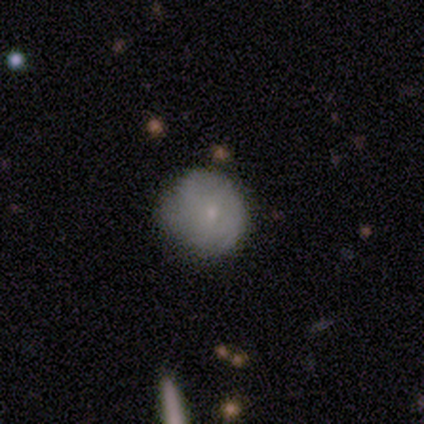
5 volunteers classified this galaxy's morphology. Overall: smooth (80%). How rounded: round (75%). Merging: minor disturbance (60%; none 20%).